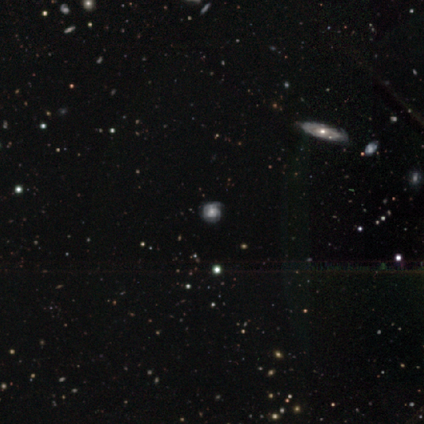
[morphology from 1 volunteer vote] featured or disk 100%, smooth 0%, star or artifact 0%. Down the decision tree: edge-on disk — no (100%); bar — no (100%); spiral arms — yes (100%); spiral arm count — can't tell (100%); spiral winding — tight (100%); bulge size — small (100%); merging — none (100%).